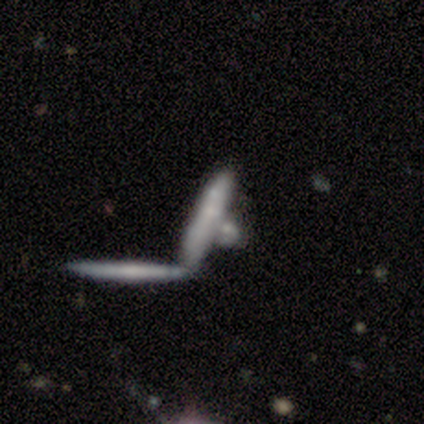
Morphology: type=smooth (60%); roundness=cigar-shaped (100%); merging=merger (50%).